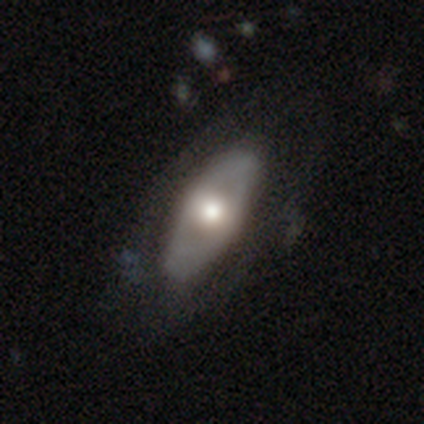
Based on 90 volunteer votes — Q: Smooth or featured?
A: featured or disk (48%); runner-up: smooth (44%)
Q: Edge-on disk?
A: no (72%); runner-up: yes (28%)
Q: Bar?
A: no (81%); runner-up: strong (10%)
Q: Spiral arms?
A: no (87%); runner-up: yes (13%)
Q: Bulge size?
A: moderate (65%); runner-up: large (32%)
Q: Merging?
A: none (72%); runner-up: minor disturbance (14%)